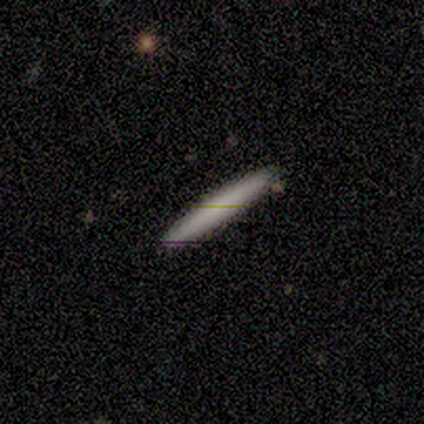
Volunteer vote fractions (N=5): Smooth or featured: smooth — 80% (featured or disk — 20%)
How rounded: cigar-shaped — 100%
Merging: none — 100%